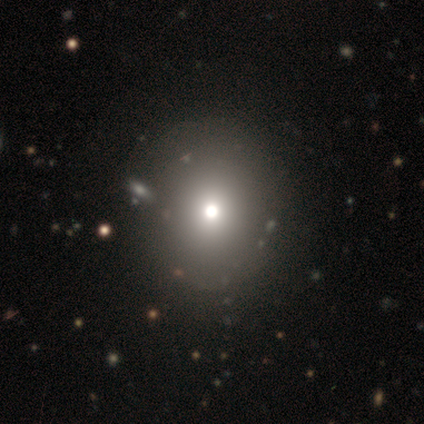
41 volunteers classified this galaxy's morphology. smooth_or_featured: smooth (p=0.66) [alt: star or artifact p=0.22]
how_rounded: round (p=0.93) [alt: in between p=0.07]
merging: none (p=0.75) [alt: merger p=0.03]